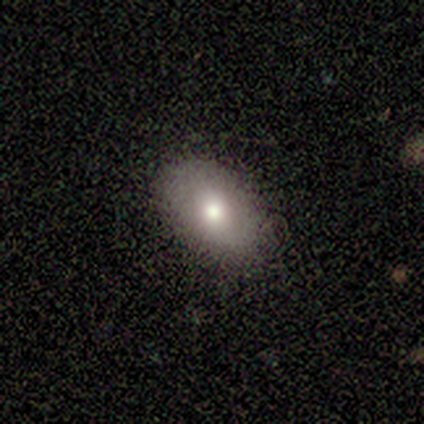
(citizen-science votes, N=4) smooth 50% (tied), featured or disk 50% (tied), star or artifact 0%. Down the decision tree: how rounded — in between (50%, tied with cigar-shaped); merging — none (75%).